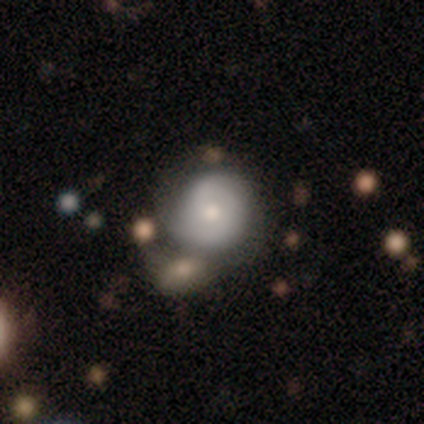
This appears to be a featured or disk galaxy (100%) with no bar (100%), 2 (100%) loose (100%) spiral arms (100%) and a small central bulge (100%). Merging: merger (100%).